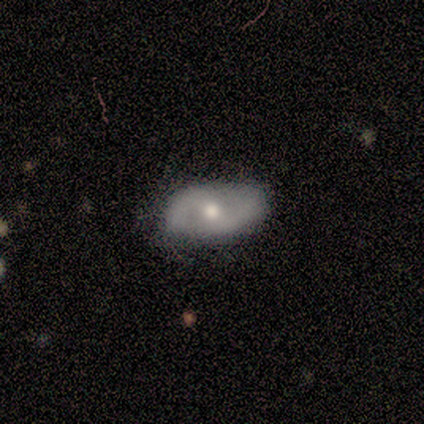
Smooth or featured? 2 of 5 (40%, tied with featured or disk) said smooth. How rounded? 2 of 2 (100%) said in between. Merging? 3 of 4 (75%) said none.